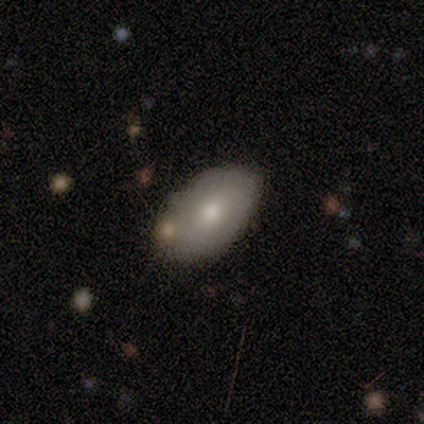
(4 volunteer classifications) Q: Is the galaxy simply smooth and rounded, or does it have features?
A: smooth — 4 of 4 (100%).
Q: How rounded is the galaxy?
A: in between — 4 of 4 (100%).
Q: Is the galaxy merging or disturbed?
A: none — 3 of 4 (75%).